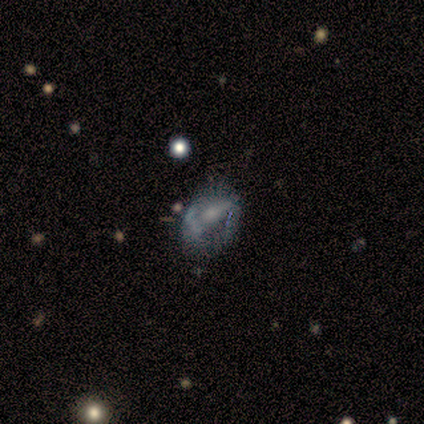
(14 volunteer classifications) Smooth or featured?
  - featured or disk: 50% *
  - star or artifact: 43%
  - smooth: 7%
Edge-on disk?
  - no: 100% *
  - yes: 0%
Bar?
  - no: 57% *
  - strong: 29%
  - weak: 14%
Spiral arms?
  - no: 57% *
  - yes: 43%
Bulge size?
  - small: 57% *
  - large: 14%
  - moderate: 14%
  - none: 14%
  - dominant: 0%
Merging?
  - none: 50% *
  - minor disturbance: 38%
  - merger: 12%
  - major disturbance: 0%